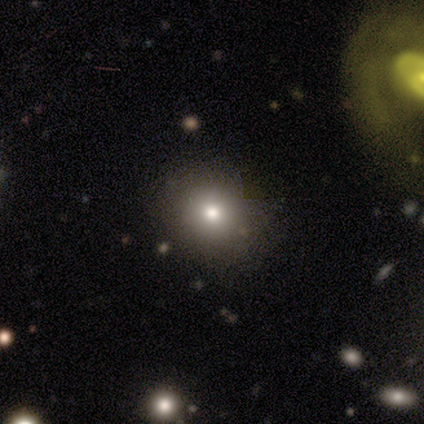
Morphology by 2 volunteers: type=smooth (50%, tied with star or artifact); roundness=in between (100%); merging=none (100%).